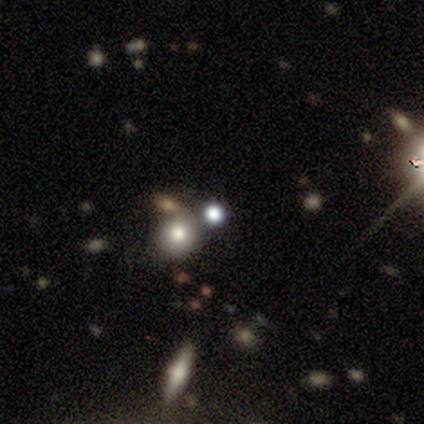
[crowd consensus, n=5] Morphology: type=star or artifact (60%).